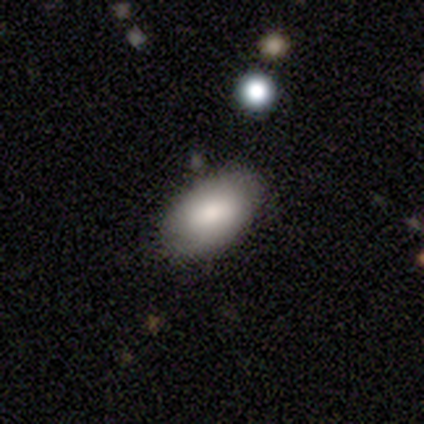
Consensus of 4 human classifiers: Overall: smooth (100%). How rounded: in between (100%). Merging: none (100%).